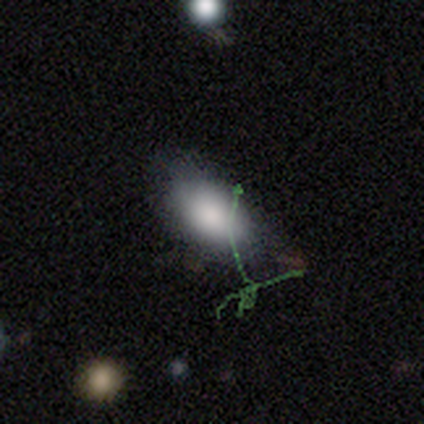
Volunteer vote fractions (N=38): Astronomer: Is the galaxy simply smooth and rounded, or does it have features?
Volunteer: smooth — 87%.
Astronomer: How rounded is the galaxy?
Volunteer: in between — 97%.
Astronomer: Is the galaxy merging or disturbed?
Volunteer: none — 71%.